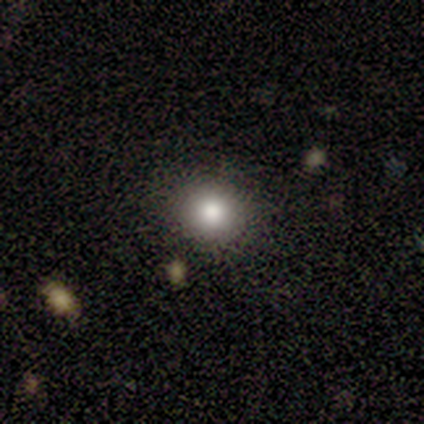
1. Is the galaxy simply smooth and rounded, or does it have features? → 60% star or artifact, 40% smooth, 0% featured or disk.